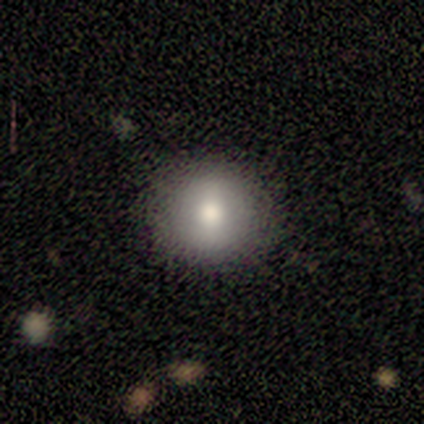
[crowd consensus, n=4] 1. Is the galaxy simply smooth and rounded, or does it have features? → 75% smooth, 25% star or artifact, 0% featured or disk.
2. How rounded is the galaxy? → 67% round, 33% in between, 0% cigar-shaped.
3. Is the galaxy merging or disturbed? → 100% none, 0% minor disturbance, 0% major disturbance, 0% merger.